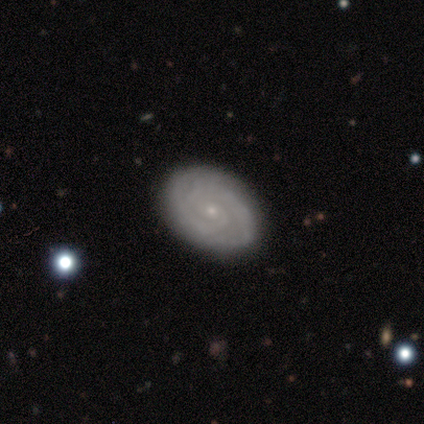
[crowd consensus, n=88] Morphology: type=featured or disk (80%); edge-on=no (94%); bar=no (73%); spiral arms=yes (95%); winding=tight (70%); arm count=2 (54%); bulge=small (92%); merging=none (83%).